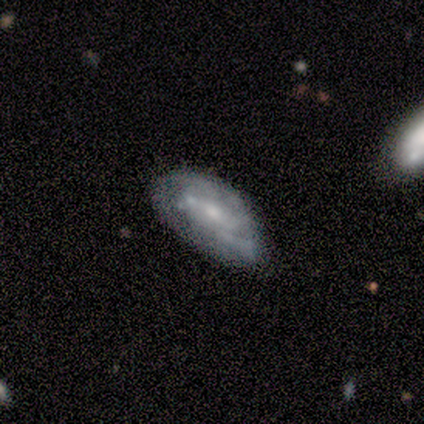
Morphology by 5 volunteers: Smooth or featured? featured or disk (80%)
Edge-on disk? no (100%)
Bar? no (75%)
Spiral arms? no (75%)
Bulge size? small (75%)
Merging? none (40%)